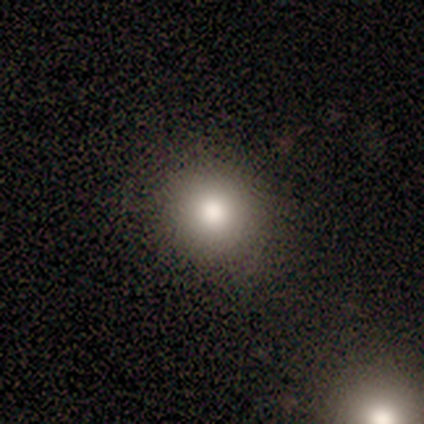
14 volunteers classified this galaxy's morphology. Volunteers were most divided on "smooth or featured": smooth: 86%, featured or disk: 14%, star or artifact: 0%. More confident: how rounded — round (92%); merging — none (86%).